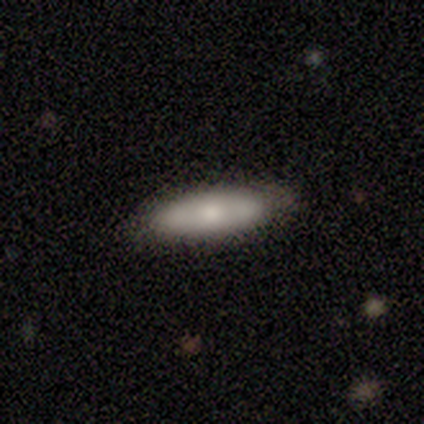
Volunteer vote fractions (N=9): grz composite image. It shows a smooth galaxy with no disk features (56%) that is cigar-shaped (80%). Merging: none (62%).